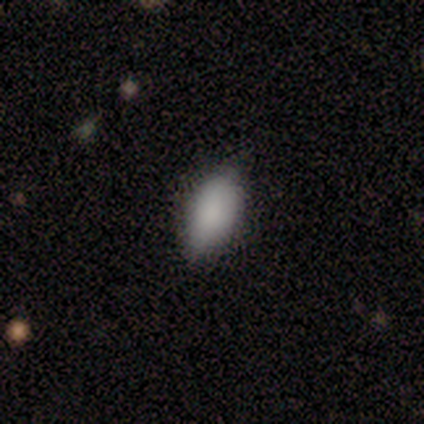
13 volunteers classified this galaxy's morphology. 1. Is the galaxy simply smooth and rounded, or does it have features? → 92% smooth, 8% featured or disk, 0% star or artifact.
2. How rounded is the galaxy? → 92% in between, 8% cigar-shaped, 0% round.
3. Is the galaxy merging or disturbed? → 77% none, 23% minor disturbance, 0% major disturbance, 0% merger.